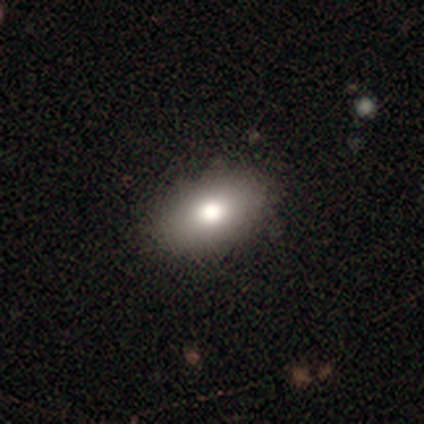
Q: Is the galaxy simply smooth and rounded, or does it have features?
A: smooth — 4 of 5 (80%).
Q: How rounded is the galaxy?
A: in between — 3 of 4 (75%).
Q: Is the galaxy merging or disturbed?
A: none — 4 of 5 (80%).